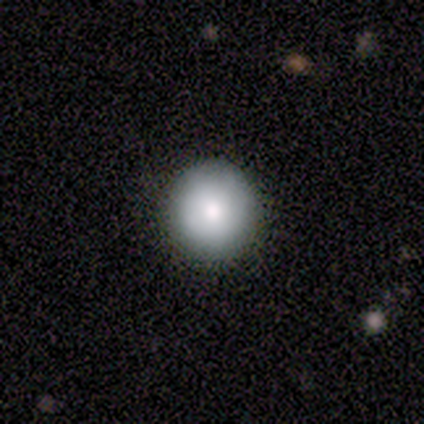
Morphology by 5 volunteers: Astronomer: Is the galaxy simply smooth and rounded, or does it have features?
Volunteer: smooth — 80%.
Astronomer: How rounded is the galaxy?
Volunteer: round — 100%.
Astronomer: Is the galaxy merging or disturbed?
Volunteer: none — 80%.